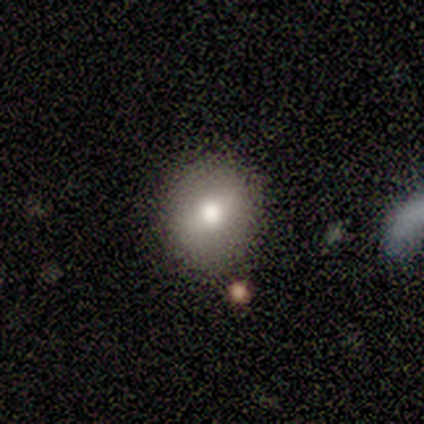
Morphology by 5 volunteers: This is likely a smooth galaxy (60%). How rounded: likely round (67%). Merging: clearly none (100%).